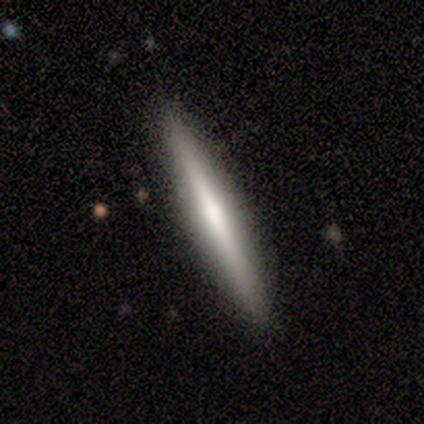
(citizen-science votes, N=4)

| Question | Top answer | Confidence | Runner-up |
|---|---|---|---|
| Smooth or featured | featured or disk | 100% | — |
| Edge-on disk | yes | 100% | — |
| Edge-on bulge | boxy | 50% | none (25%) |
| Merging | none | 100% | — |